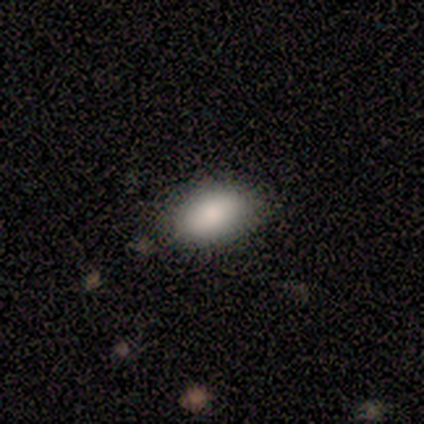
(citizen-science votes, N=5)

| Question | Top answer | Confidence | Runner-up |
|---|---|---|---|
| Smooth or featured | smooth | 80% | star or artifact (20%) |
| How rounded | in between | 100% | — |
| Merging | none | 75% | minor disturbance (25%) |